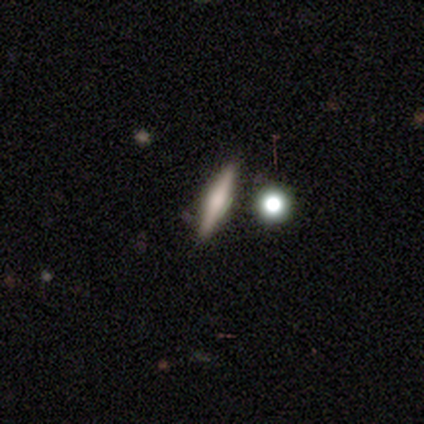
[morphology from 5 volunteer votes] Overall: smooth (60%; featured or disk 20%). How rounded: cigar-shaped (100%). Merging: none (100%).